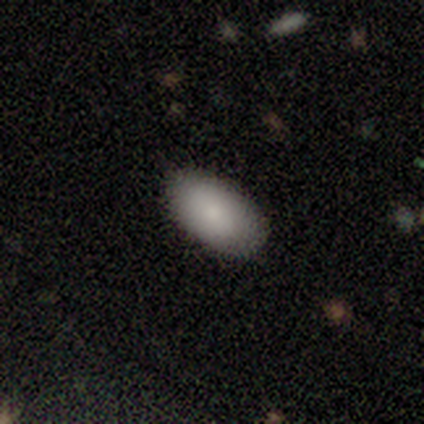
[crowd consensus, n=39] A smooth galaxy with no disk features (87%) that is in between round and cigar-shaped (100%). Merging: none (86%).